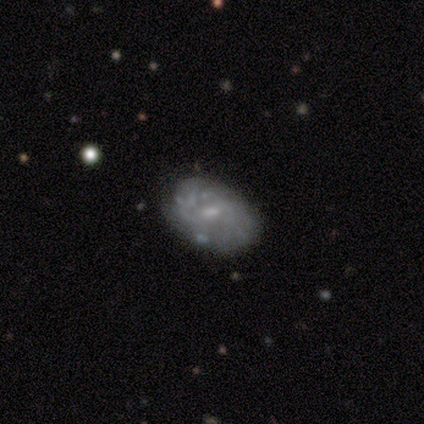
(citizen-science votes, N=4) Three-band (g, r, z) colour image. It shows a featured or disk galaxy (75%) with a weak bar (67%), 1 (33%, tied with 2 and can't tell) tight (100%) spiral arms (100%) and a small central bulge (67%). Merging: none (50%, tied with minor disturbance).